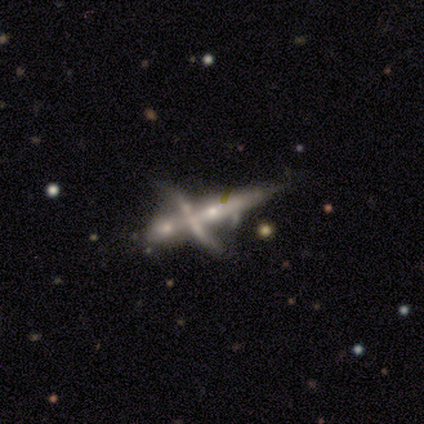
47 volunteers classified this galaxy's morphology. smooth-or-featured: featured or disk: 77% | smooth: 15% | star or artifact: 9%
  disk-edge-on: no: 56% | yes: 44%
    bar: no: 85% | strong: 10% | weak: 5%
    has-spiral-arms: no: 75% | yes: 25%
    bulge-size: moderate: 35% | small: 30% | none: 30% | large: 5% | dominant: 0%
  merging: merger: 79% | major disturbance: 9% | minor disturbance: 7% | none: 5%